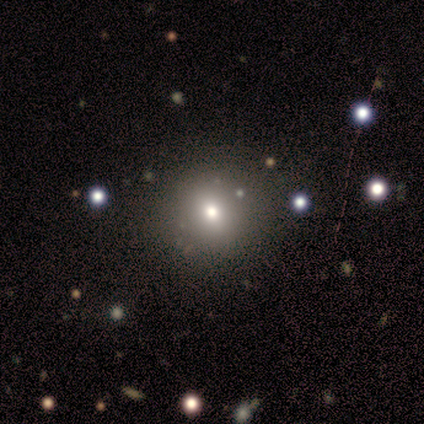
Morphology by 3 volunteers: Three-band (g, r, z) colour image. It shows a star or artifact, not a galaxy (67%).